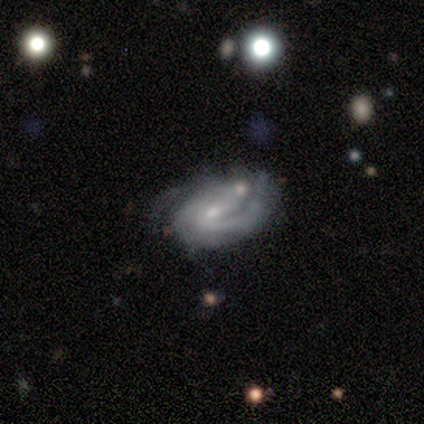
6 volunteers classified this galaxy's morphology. This appears to be a featured or disk galaxy (100%) with no bar (50%), 1 (50%) medium (50%) spiral arms (100%) and a moderate central bulge (50%). Merging: minor disturbance (50%).